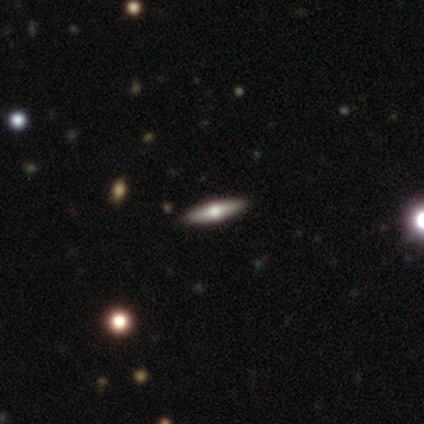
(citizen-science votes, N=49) This appears to be a featured or disk galaxy (67%) viewed edge-on (100%) with a rounded central bulge (97%). Merging: none (96%).